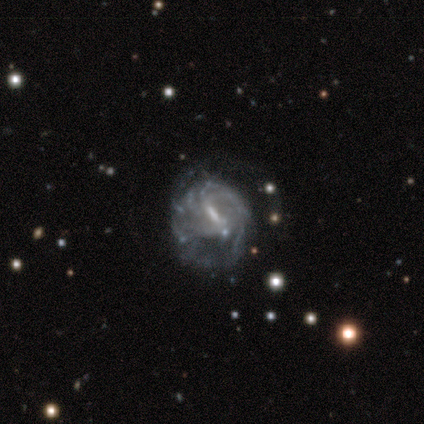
A featured or disk galaxy (87%) with a weak bar (64%), tight (63%) spiral arms (91%) and a moderate central bulge (42%).

Vote fractions:
- Smooth or featured? featured or disk: 87% / smooth: 8% / star or artifact: 5%
- Edge-on disk? no: 100% / yes: 0%
- Bar? weak: 64% / strong: 30% / no: 6%
- Spiral arms? yes: 91% / no: 9%
- Spiral winding? tight: 63% / medium: 27% / loose: 10%
- Spiral arm count? can't tell: 57% / more than 4: 23% / 2: 10% / 1: 3% / 3: 3% / 4: 3%
- Bulge size? moderate: 42% / small: 33% / none: 21% / large: 3% / dominant: 0%
- Merging? none: 44% / major disturbance: 36% / minor disturbance: 19% / merger: 0%